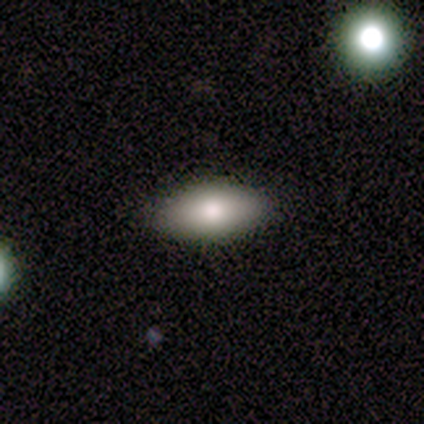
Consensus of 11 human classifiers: smooth 64%, featured or disk 18%, star or artifact 18%. Down the decision tree: how rounded — in between (86%); merging — none (78%).